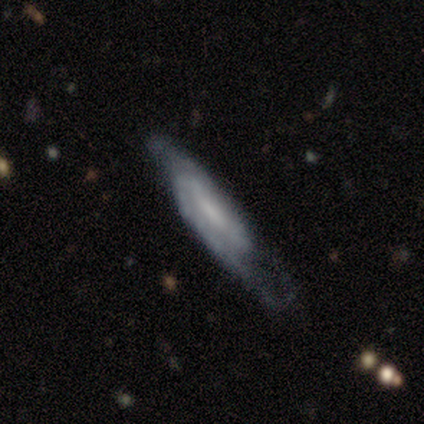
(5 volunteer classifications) Smooth or featured? 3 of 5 (60%) said featured or disk. Edge-on disk? 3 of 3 (100%) said no. Bar? 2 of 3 (67%) said no. Spiral arms? 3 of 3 (100%) said yes. Spiral winding? 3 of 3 (100%) said medium. Spiral arm count? 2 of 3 (67%) said can't tell. Bulge size? 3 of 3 (100%) said small. Merging? 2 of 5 (40%, tied with major disturbance) said none.